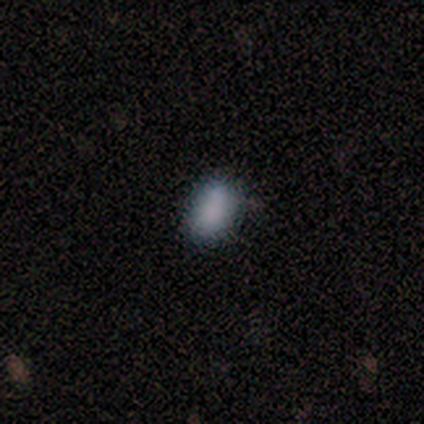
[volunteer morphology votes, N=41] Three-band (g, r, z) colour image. It shows a smooth galaxy with no disk features (98%) that is in between round and cigar-shaped (82%). Merging: none (68%).